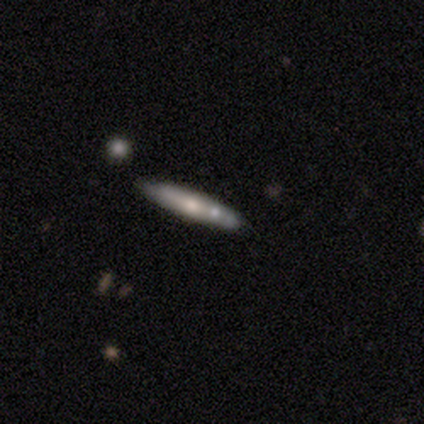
A featured or disk galaxy (60%) viewed edge-on (67%) with a rounded central bulge (100%).

Vote fractions:
- Smooth or featured? featured or disk: 60% / smooth: 40% / star or artifact: 0%
- Edge-on disk? yes: 67% / no: 33%
- Edge-on bulge? rounded: 100% / boxy: 0% / none: 0%
- Merging? none: 80% / minor disturbance: 20% / major disturbance: 0% / merger: 0%